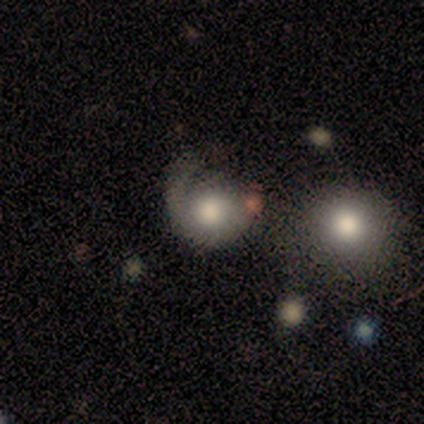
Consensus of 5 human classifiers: Volunteers were most divided on "smooth or featured": smooth: 60%, featured or disk: 40%, star or artifact: 0%. Remaining: how rounded — round (67%); merging — none (40%).